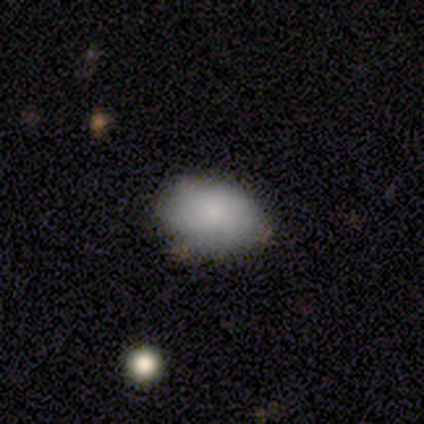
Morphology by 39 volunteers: Volunteers were most divided on "merging": none: 71%, minor disturbance: 26%, merger: 3%, major disturbance: 0%. More confident: how rounded — in between (91%); smooth or featured — smooth (85%).